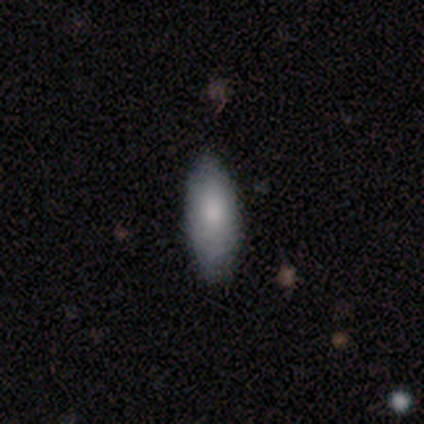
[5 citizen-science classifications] Smooth or featured? smooth (100%)
How rounded? in between (80%)
Merging? none (80%)